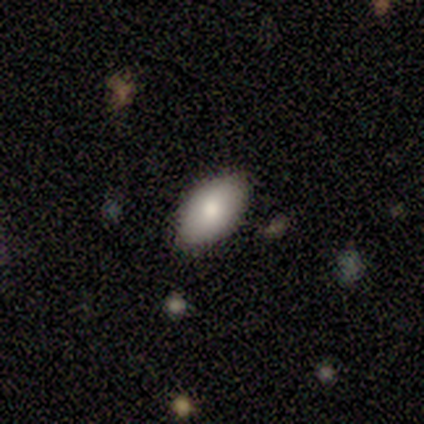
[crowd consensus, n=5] This appears to be a smooth galaxy with no disk features (100%) that is in between round and cigar-shaped (100%). Merging: none (100%).